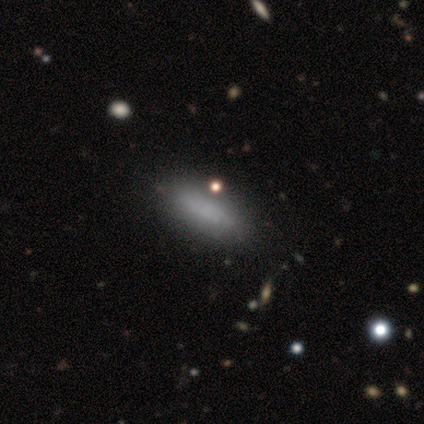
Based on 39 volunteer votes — smooth-or-featured: smooth: 74% | featured or disk: 18% | star or artifact: 8%
  how-rounded: in between: 59% | cigar-shaped: 41% | round: 0%
  merging: none: 53% | minor disturbance: 6% | major disturbance: 6% | merger: 3%